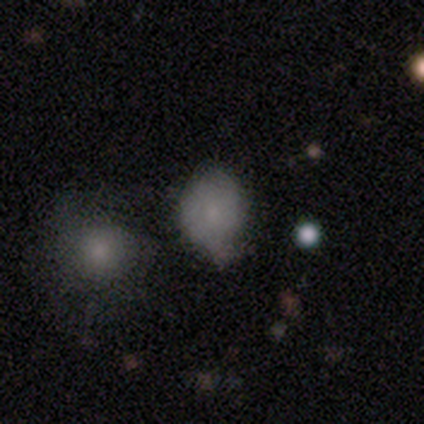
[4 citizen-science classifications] Overall: smooth (50%, tied with star or artifact). How rounded: round (100%). Merging: minor disturbance (50%, tied with major disturbance).